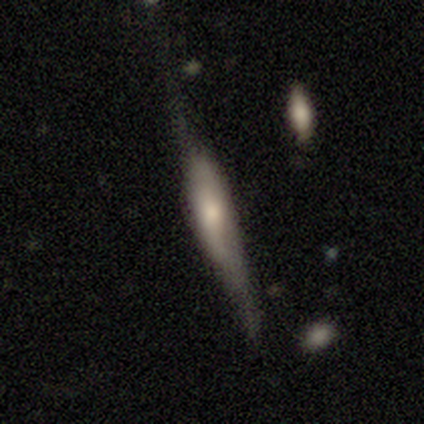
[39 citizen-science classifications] smooth-or-featured: featured or disk: 59% | smooth: 36% | star or artifact: 5%
  disk-edge-on: yes: 87% | no: 13%
    edge-on-bulge: rounded: 65% | boxy: 20% | none: 15%
  merging: none: 51% | major disturbance: 27% | minor disturbance: 22% | merger: 0%